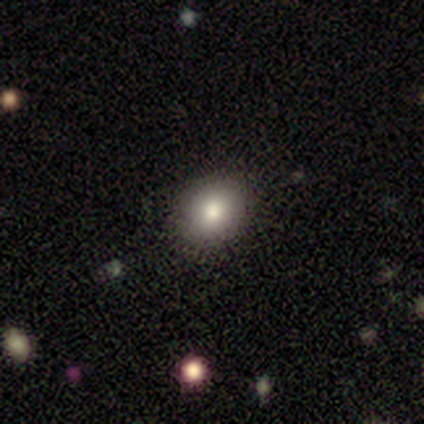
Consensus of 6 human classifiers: Overall: smooth (83%). How rounded: round (60%; in between 40%). Merging: none (80%).